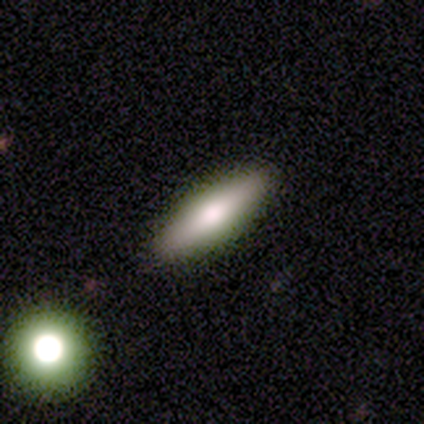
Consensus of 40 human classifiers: Smooth or featured?
  - smooth: 62% *
  - featured or disk: 32%
  - star or artifact: 5%
How rounded?
  - in between: 56% *
  - cigar-shaped: 44%
  - round: 0%
Merging?
  - none: 87% *
  - minor disturbance: 5%
  - major disturbance: 5%
  - merger: 3%